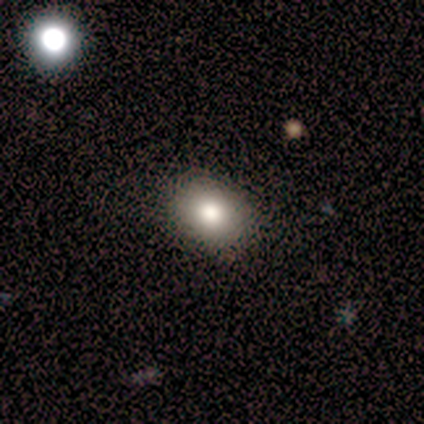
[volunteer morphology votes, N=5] A smooth galaxy with no disk features (100%) that is in between round and cigar-shaped (100%).

Vote fractions:
- Smooth or featured? smooth: 100% / featured or disk: 0% / star or artifact: 0%
- How rounded? in between: 100% / round: 0% / cigar-shaped: 0%
- Merging? none: 80% / minor disturbance: 20% / major disturbance: 0% / merger: 0%